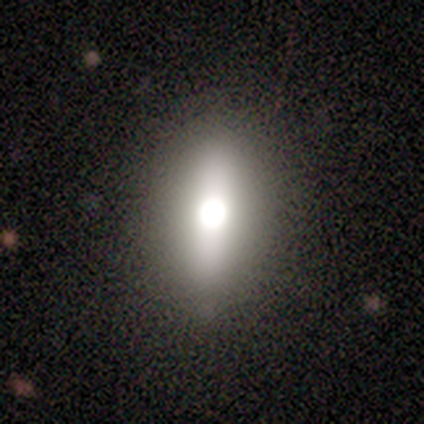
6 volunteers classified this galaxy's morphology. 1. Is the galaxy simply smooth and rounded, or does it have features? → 67% smooth, 33% featured or disk, 0% star or artifact.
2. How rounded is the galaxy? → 50% in between (tied), 50% cigar-shaped (tied), 0% round.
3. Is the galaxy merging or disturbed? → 83% none, 17% minor disturbance, 0% major disturbance, 0% merger.